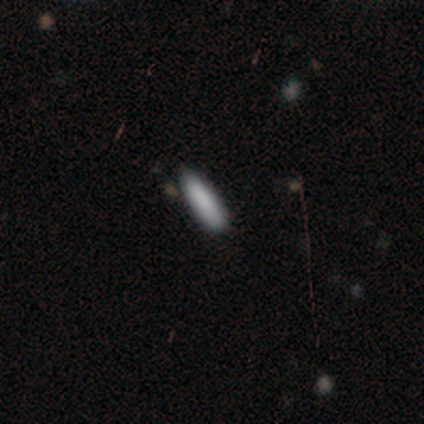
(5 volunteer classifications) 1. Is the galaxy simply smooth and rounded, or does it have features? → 100% smooth, 0% featured or disk, 0% star or artifact.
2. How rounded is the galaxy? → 60% cigar-shaped, 40% in between, 0% round.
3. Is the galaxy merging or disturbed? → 80% none, 20% minor disturbance, 0% major disturbance, 0% merger.